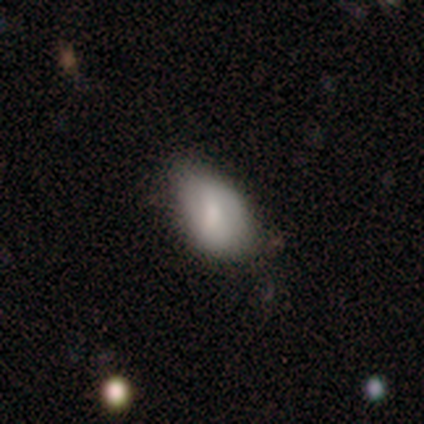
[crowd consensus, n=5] Smooth or featured? smooth (60%)
How rounded? in between (67%)
Merging? none (50%, tied with minor disturbance)